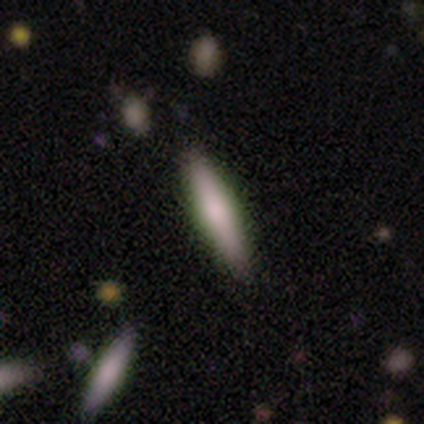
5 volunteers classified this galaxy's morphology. Q: Smooth or featured?
A: smooth (100%)
Q: How rounded?
A: cigar-shaped (100%)
Q: Merging?
A: none (100%)